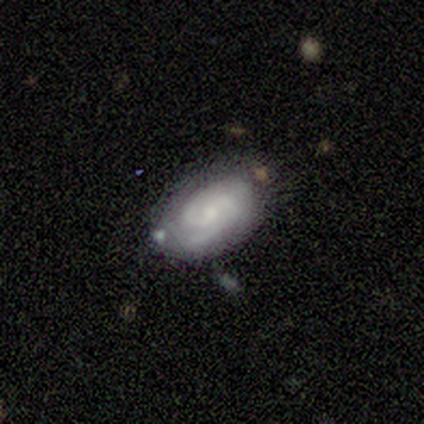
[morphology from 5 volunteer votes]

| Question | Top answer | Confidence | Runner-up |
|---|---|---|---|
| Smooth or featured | featured or disk | 60% | smooth (40%) |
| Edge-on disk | no | 100% | — |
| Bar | weak | 67% | no (33%) |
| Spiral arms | yes | 100% | — |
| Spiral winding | medium | 100% | — |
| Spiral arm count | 2 | 33% | tied: 3 (33%), can't tell (33%) |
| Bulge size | small | 67% | moderate (33%) |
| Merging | none | 80% | minor disturbance (20%) |